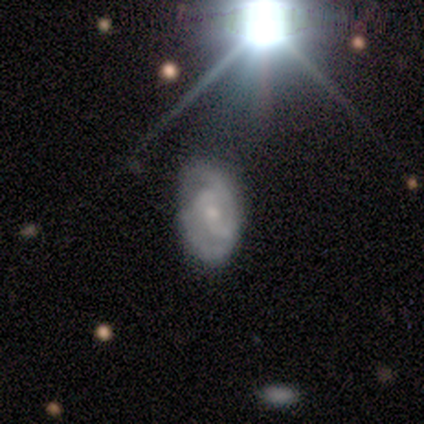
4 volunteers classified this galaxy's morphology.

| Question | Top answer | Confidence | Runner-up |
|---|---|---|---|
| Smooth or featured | featured or disk | 75% | star or artifact (25%) |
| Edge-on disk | no | 100% | — |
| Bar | weak | 67% | no (33%) |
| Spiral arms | yes | 100% | — |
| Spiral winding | tight | 33% | tied: medium (33%), loose (33%) |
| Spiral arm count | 2 | 33% | tied: 4 (33%), can't tell (33%) |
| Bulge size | small | 67% | moderate (33%) |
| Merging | none | 67% | major disturbance (33%) |